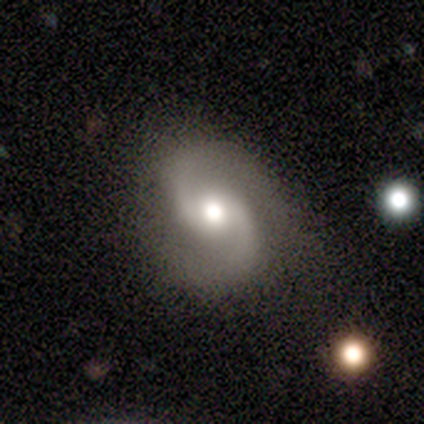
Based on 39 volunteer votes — Smooth or featured?
  - featured or disk: 95% *
  - smooth: 3%
  - star or artifact: 3%
Edge-on disk?
  - no: 97% *
  - yes: 3%
Bar?
  - no: 58% *
  - weak: 36%
  - strong: 6%
Spiral arms?
  - yes: 97% *
  - no: 3%
Spiral winding?
  - medium: 49% *
  - loose: 46%
  - tight: 6%
Spiral arm count?
  - 2: 100% *
  - 1: 0%
  - 3: 0%
  - 4: 0%
  - more than 4: 0%
  - can't tell: 0%
Bulge size?
  - moderate: 67% *
  - large: 19%
  - dominant: 8%
  - small: 6%
  - none: 0%
Merging?
  - none: 82% *
  - minor disturbance: 16%
  - major disturbance: 3%
  - merger: 0%